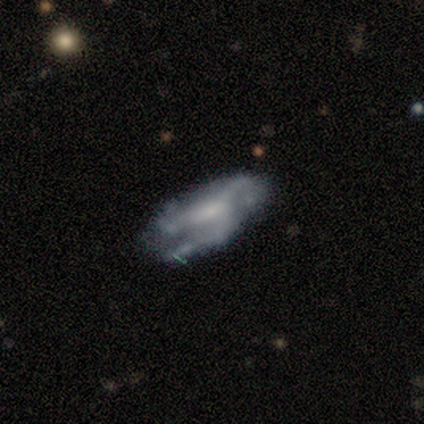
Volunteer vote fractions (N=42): Morphology: type=featured or disk (62%); edge-on=no (96%); bar=no (56%); spiral arms=yes (84%); winding=medium (62%); arm count=3 (95%); bulge=moderate (48%); merging=none (69%).